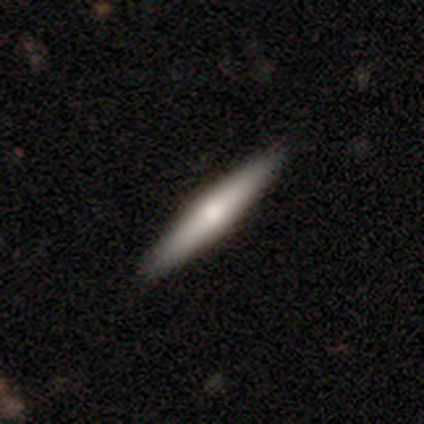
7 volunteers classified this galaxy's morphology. A featured or disk galaxy (57%) viewed edge-on (100%) with no central bulge (50%, tied with rounded). Merging: none (100%).